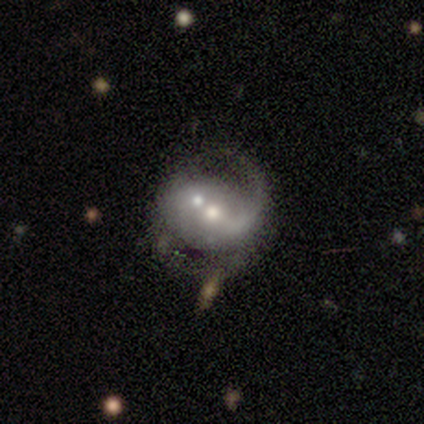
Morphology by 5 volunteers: Smooth or featured? 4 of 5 (80%) said featured or disk. Edge-on disk? 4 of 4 (100%) said no. Bar? 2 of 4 (50%) said weak. Spiral arms? 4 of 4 (100%) said yes. Spiral winding? 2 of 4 (50%) said loose. Spiral arm count? 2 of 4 (50%, tied with 2) said 1. Bulge size? 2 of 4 (50%, tied with small) said moderate. Merging? 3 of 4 (75%) said minor disturbance.